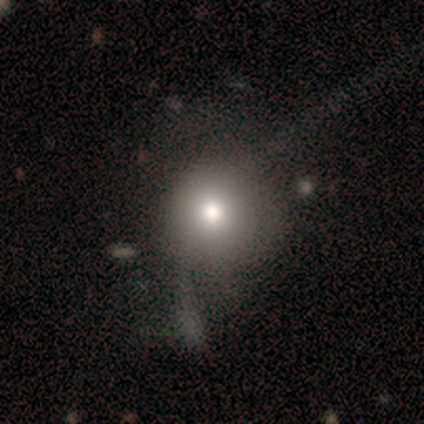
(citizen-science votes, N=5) Q: Smooth or featured?
A: smooth (60%); runner-up: star or artifact (40%)
Q: How rounded?
A: round (100%)
Q: Merging?
A: none (67%); runner-up: minor disturbance (33%)